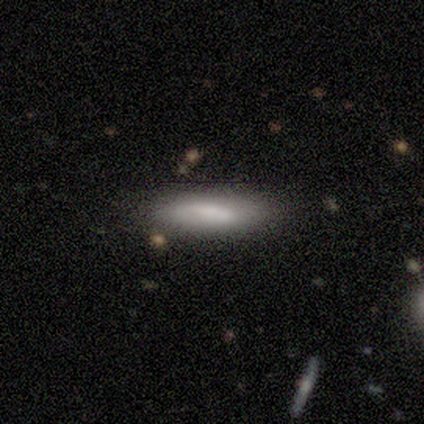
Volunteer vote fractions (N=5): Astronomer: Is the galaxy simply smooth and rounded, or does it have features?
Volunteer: smooth — 60%.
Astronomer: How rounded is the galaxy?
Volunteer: cigar-shaped — 67%.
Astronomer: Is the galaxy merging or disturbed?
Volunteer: none — 75%.